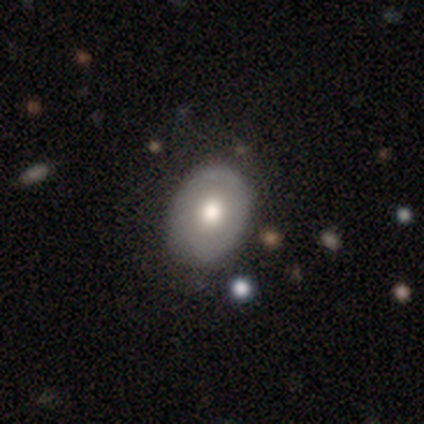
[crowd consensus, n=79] A featured or disk galaxy (59%) with no bar (98%), no spiral arms (93%) and a moderate central bulge (73%). Merging: none (38%).